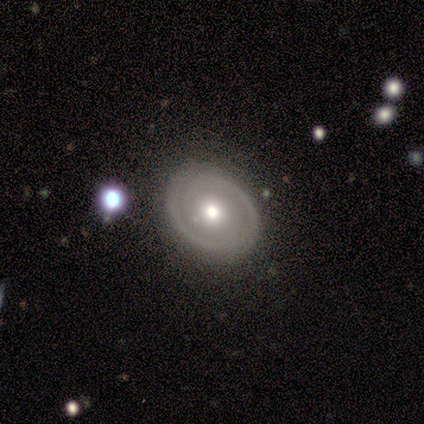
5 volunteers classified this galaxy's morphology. A featured or disk galaxy (80%) with no bar (75%), 2 (67%) tight (67%) spiral arms (75%) and a moderate central bulge (75%).

Vote fractions:
- Smooth or featured? featured or disk: 80% / smooth: 20% / star or artifact: 0%
- Edge-on disk? no: 100% / yes: 0%
- Bar? no: 75% / weak: 25% / strong: 0%
- Spiral arms? yes: 75% / no: 25%
- Spiral winding? tight: 67% / loose: 33% / medium: 0%
- Spiral arm count? 2: 67% / 1: 33% / 3: 0% / 4: 0% / more than 4: 0% / can't tell: 0%
- Bulge size? moderate: 75% / large: 25% / dominant: 0% / small: 0% / none: 0%
- Merging? none: 100% / minor disturbance: 0% / major disturbance: 0% / merger: 0%